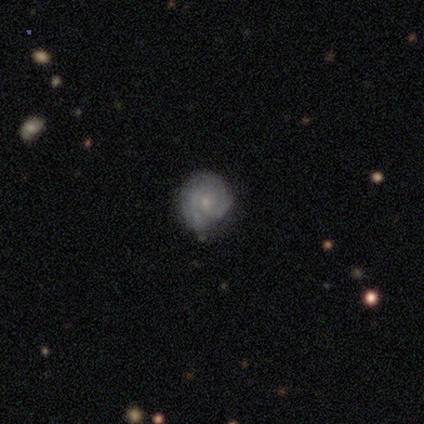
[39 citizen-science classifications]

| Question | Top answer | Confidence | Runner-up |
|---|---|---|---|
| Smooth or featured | featured or disk | 77% | smooth (23%) |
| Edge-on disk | no | 100% | — |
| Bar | no | 73% | weak (27%) |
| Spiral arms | yes | 83% | no (17%) |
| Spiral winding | tight | 80% | medium (20%) |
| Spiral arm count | can't tell | 44% | 2 (40%) |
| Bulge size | small | 77% | moderate (17%) |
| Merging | none | 72% | minor disturbance (26%) |